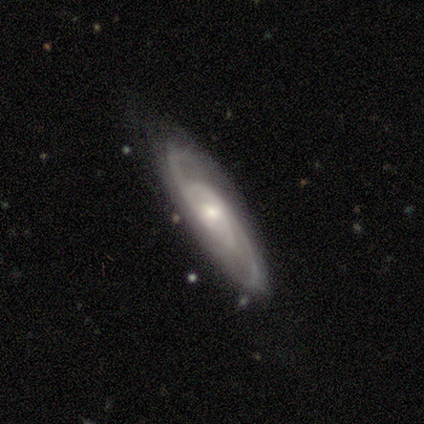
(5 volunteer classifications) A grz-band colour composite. It shows a featured or disk galaxy (80%) with a weak bar (50%, tied with no), 2 (75%) tight (50%) spiral arms (100%) and a moderate central bulge (50%, tied with small). Merging: none (75%).